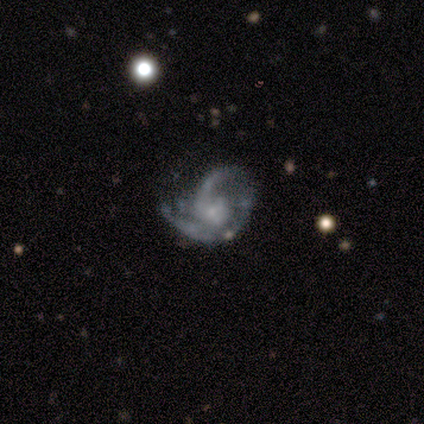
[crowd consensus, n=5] Smooth or featured? 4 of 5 (80%) said featured or disk. Edge-on disk? 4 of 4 (100%) said no. Bar? 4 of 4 (100%) said no. Spiral arms? 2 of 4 (50%, tied with no) said yes. Spiral winding? 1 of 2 (50%, tied with loose) said medium. Spiral arm count? 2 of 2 (100%) said 2. Bulge size? 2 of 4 (50%) said small. Merging? 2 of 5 (40%, tied with major disturbance) said none.